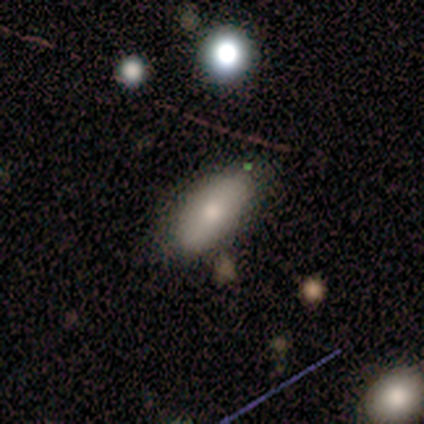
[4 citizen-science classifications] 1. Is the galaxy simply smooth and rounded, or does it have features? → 50% smooth (tied), 50% featured or disk (tied), 0% star or artifact.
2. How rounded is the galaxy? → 100% in between, 0% round, 0% cigar-shaped.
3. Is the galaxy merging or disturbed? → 75% minor disturbance, 25% none, 0% major disturbance, 0% merger.